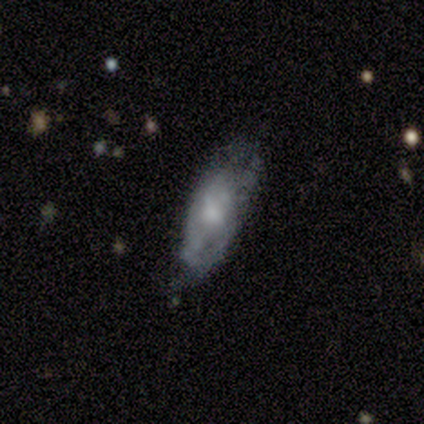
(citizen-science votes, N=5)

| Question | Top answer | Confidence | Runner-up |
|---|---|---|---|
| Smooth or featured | smooth | 80% | featured or disk (20%) |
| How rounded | in between | 75% | cigar-shaped (25%) |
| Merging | none | 60% | minor disturbance (40%) |